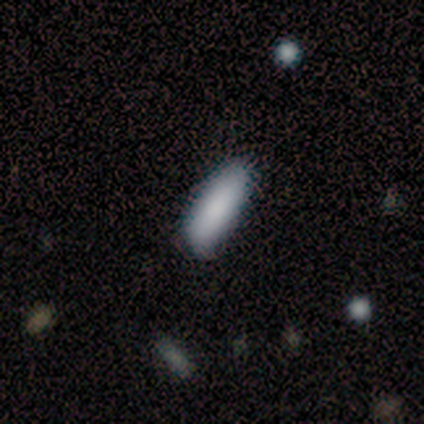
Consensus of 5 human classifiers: A smooth galaxy with no disk features (80%) that is in between round and cigar-shaped (100%).

Vote fractions:
- Smooth or featured? smooth: 80% / star or artifact: 20% / featured or disk: 0%
- How rounded? in between: 100% / round: 0% / cigar-shaped: 0%
- Merging? none: 50% (tied) / minor disturbance: 50% (tied) / major disturbance: 0% / merger: 0%